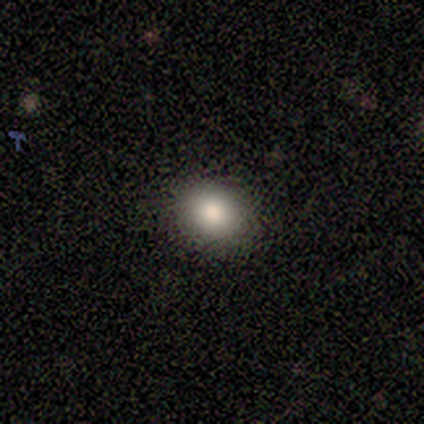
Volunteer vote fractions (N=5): Volunteers were most divided on "how rounded" (2-way tie): round: 50%, in between: 50%, cigar-shaped: 0%. More confident: merging — none (100%); smooth or featured — smooth (80%).